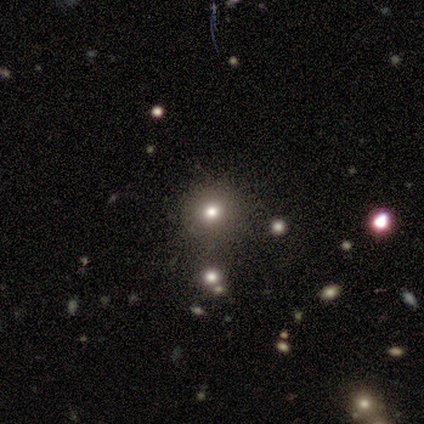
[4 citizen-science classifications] A smooth galaxy with no disk features (75%) that is round (100%). Merging: none (100%).